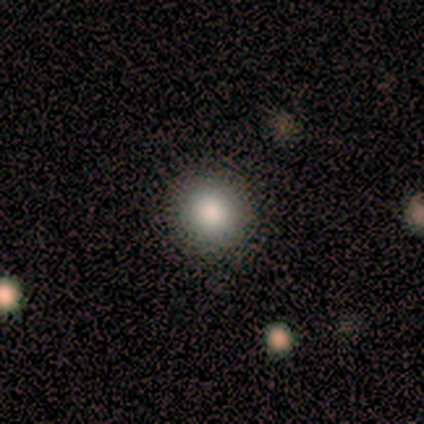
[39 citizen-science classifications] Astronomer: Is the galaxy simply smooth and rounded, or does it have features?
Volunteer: smooth — 92%.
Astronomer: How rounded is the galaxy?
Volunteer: round — 94%.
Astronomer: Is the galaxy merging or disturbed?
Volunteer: none — 89%.